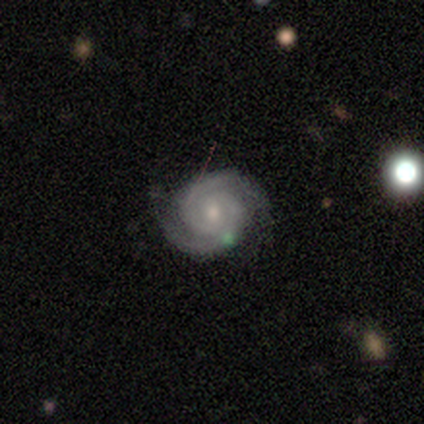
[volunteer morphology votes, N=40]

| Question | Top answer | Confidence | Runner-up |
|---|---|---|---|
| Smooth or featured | featured or disk | 95% | smooth (2%) |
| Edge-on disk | no | 100% | — |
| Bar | no | 66% | weak (32%) |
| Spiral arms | yes | 100% | — |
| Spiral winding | tight | 74% | medium (26%) |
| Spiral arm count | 2 | 92% | can't tell (5%) |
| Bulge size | small | 50% | moderate (45%) |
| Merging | none | 87% | minor disturbance (8%) |